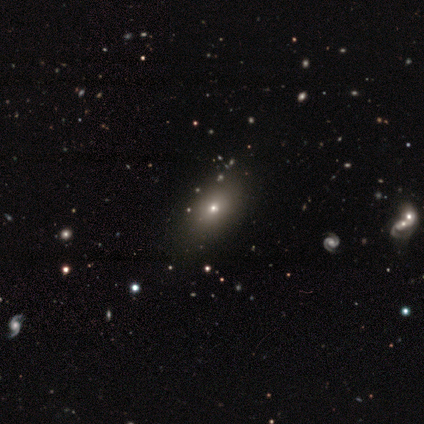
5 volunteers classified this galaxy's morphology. type=smooth (80%); roundness=in between (75%); merging=none (75%).